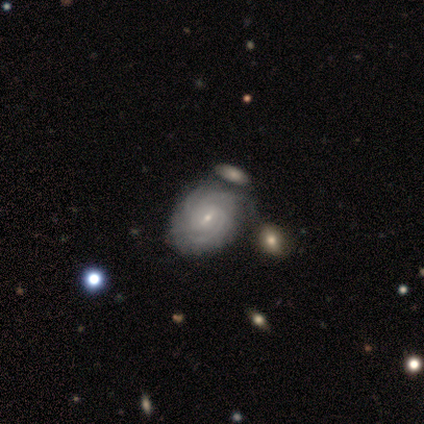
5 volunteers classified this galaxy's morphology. Smooth or featured: featured or disk — 100%
Edge-on disk: no — 100%
Bar: weak — 40% (tied with no — 40%)
Spiral arms: yes — 80% (no — 20%)
Spiral winding: tight — 100%
Spiral arm count: can't tell — 50% (3 — 25%)
Bulge size: small — 100%
Merging: none — 60% (minor disturbance — 40%)